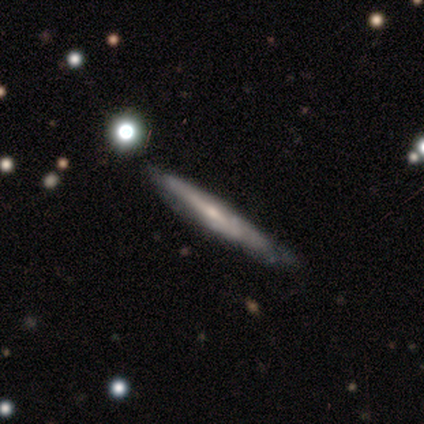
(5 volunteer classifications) Overall: featured or disk (80%). Edge-on disk: yes (100%). Edge-on bulge: none (100%). Merging: none (80%).